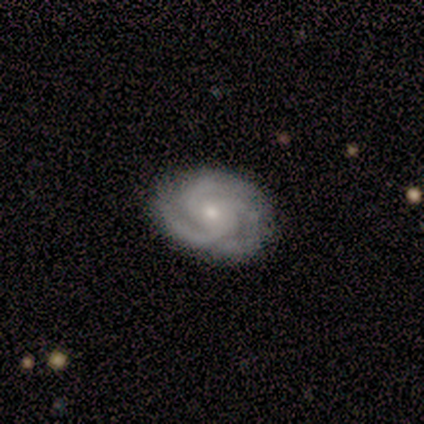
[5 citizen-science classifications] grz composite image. It shows a featured or disk galaxy (80%) with no bar (75%), 3 (50%) tight (75%) spiral arms (100%) and a moderate central bulge (75%). Merging: none (80%).